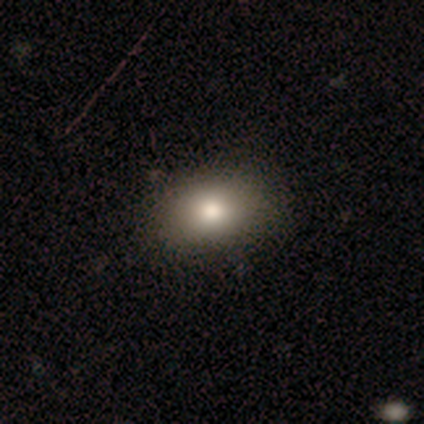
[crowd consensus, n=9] smooth 78%, featured or disk 22%, star or artifact 0%. Down the decision tree: how rounded — in between (57%); merging — none (89%).